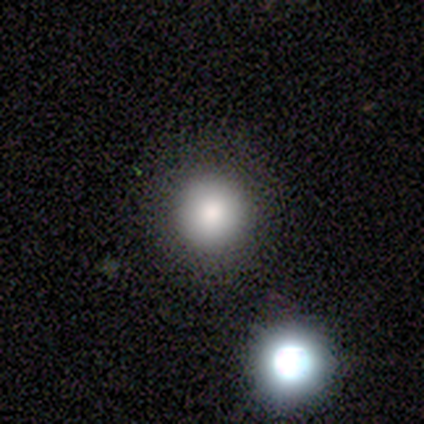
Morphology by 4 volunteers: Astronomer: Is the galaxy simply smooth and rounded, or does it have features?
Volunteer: smooth — 75%.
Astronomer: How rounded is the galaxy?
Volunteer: round — 100%.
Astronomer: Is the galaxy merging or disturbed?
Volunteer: none — 100%.